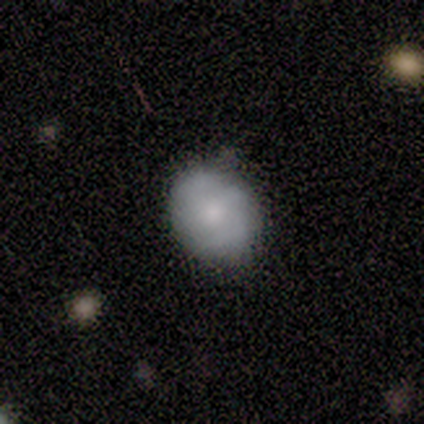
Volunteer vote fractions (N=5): smooth 80%, featured or disk 20%, star or artifact 0%. Down the decision tree: how rounded — round (75%); merging — none (60%).